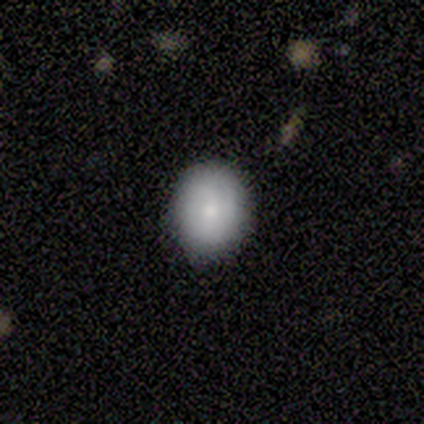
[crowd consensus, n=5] smooth_or_featured: smooth (p=1.00)
how_rounded: round (p=0.80) [alt: in between p=0.20]
merging: none (p=1.00)